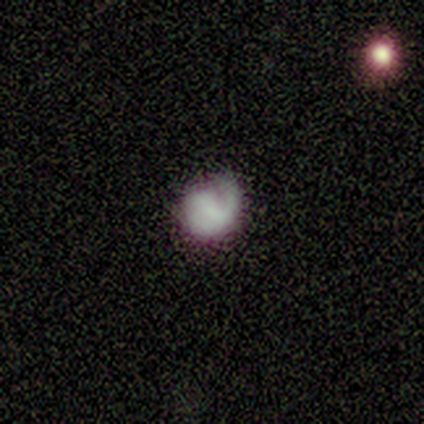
Smooth or featured? 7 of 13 (54%) said smooth. How rounded? 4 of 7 (57%) said round. Merging? 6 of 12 (50%) said none.